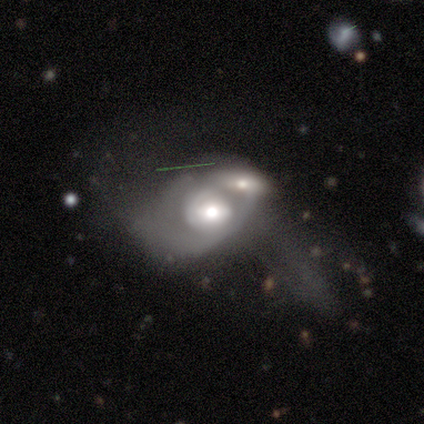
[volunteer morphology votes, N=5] smooth-or-featured: featured or disk: 60% | smooth: 20% | star or artifact: 20%
  disk-edge-on: no: 100% | yes: 0%
    bar: strong: 33% (tied) | weak: 33% (tied) | no: 33% (tied)
    has-spiral-arms: yes: 67% | no: 33%
      spiral-winding: tight: 50% (tied) | loose: 50% (tied) | medium: 0%
      spiral-arm-count: can't tell: 100% | 1: 0% | 2: 0% | 3: 0% | 4: 0% | more than 4: 0%
    bulge-size: moderate: 67% | small: 33% | dominant: 0% | large: 0% | none: 0%
  merging: merger: 100% | none: 0% | minor disturbance: 0% | major disturbance: 0%